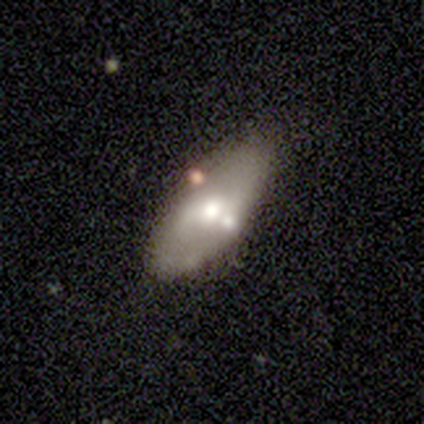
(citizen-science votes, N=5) Q: Smooth or featured?
A: smooth (40%); tied with: featured or disk (40%)
Q: How rounded?
A: in between (100%)
Q: Merging?
A: none (75%); runner-up: minor disturbance (25%)